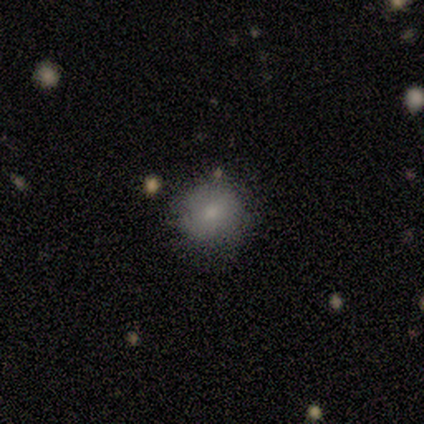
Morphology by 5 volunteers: Smooth or featured?
  - featured or disk: 60% *
  - smooth: 40%
  - star or artifact: 0%
Edge-on disk?
  - no: 100% *
  - yes: 0%
Bar?
  - weak: 67% *
  - no: 33%
  - strong: 0%
Spiral arms?
  - no: 100% *
  - yes: 0%
Bulge size?
  - large: 33% * (tied)
  - moderate: 33% * (tied)
  - small: 33% * (tied)
  - dominant: 0%
  - none: 0%
Merging?
  - none: 80% *
  - minor disturbance: 20%
  - major disturbance: 0%
  - merger: 0%